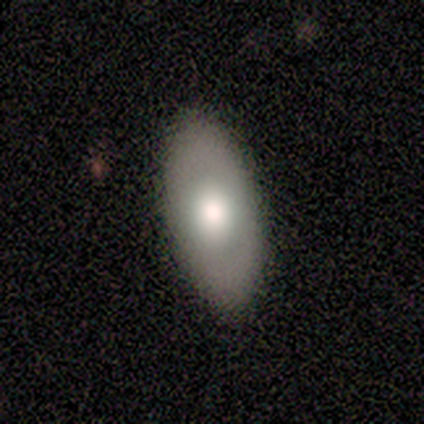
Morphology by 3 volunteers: Consensus on every question: smooth or featured — smooth (100%); how rounded — in between (100%); merging — none (100%).